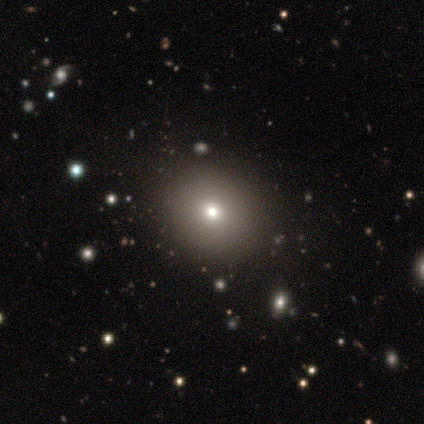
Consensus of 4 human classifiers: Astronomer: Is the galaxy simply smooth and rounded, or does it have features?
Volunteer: star or artifact — 50%.